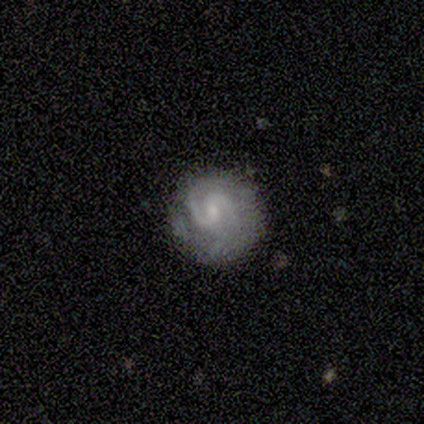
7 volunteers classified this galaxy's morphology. This is clearly a featured or disk galaxy (100%). It is clearly not viewed edge-on (100%). Bar: possibly no (57%). Spiral arm pattern: clearly yes (100%). Spiral arm count: likely 2 (71%). Spiral winding: marginally tight (43%). Central bulge: possibly small (57%). Merging: clearly none (86%).